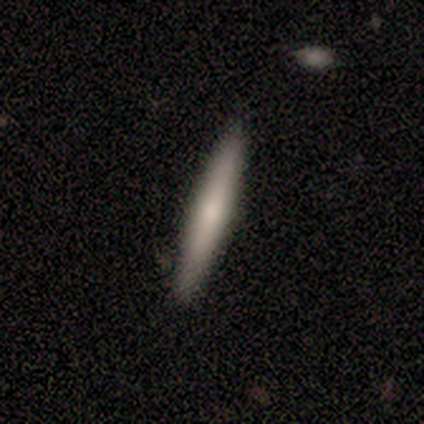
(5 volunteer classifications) smooth_or_featured: featured or disk (p=0.60) [alt: smooth p=0.40]
disk_edge_on: yes (p=1.00)
edge_on_bulge: rounded (p=1.00)
merging: none (p=0.80) [alt: minor disturbance p=0.20]